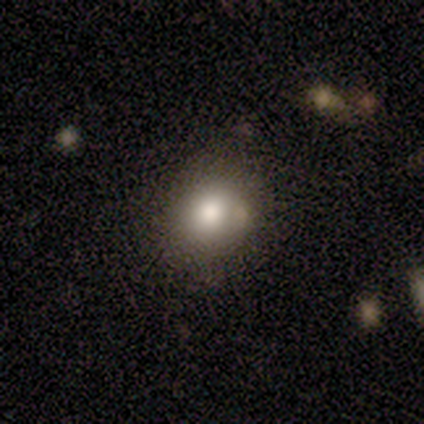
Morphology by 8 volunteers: Volunteers were most divided on "how rounded": round: 86%, in between: 14%, cigar-shaped: 0%. More confident: smooth or featured — smooth (88%); merging — none (88%).